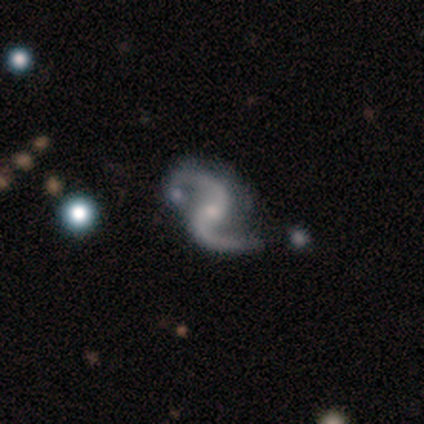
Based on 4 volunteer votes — Q: Smooth or featured?
A: featured or disk (75%); runner-up: star or artifact (25%)
Q: Edge-on disk?
A: no (100%)
Q: Bar?
A: weak (67%); runner-up: no (33%)
Q: Spiral arms?
A: yes (100%)
Q: Spiral winding?
A: loose (67%); runner-up: medium (33%)
Q: Spiral arm count?
A: 2 (100%)
Q: Bulge size?
A: small (100%)
Q: Merging?
A: none (100%)